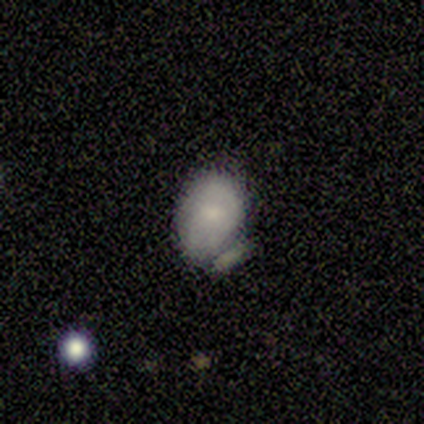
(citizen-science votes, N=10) Overall: smooth (50%, tied with featured or disk). How rounded: in between (100%). Merging: merger (50%; none 30%).